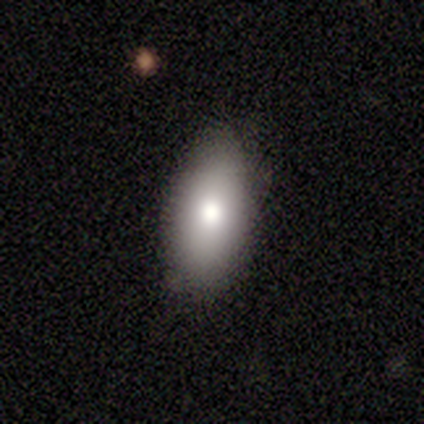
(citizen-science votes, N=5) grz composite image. It shows a smooth galaxy with no disk features (80%) that is in between round and cigar-shaped (100%). Merging: none (80%).